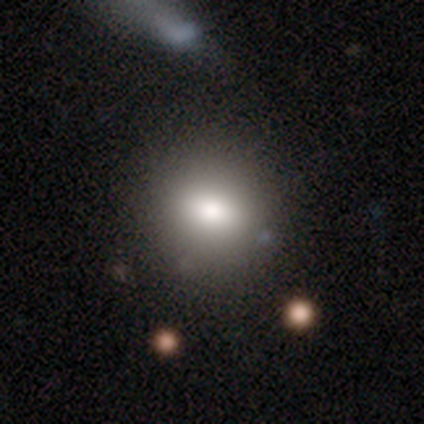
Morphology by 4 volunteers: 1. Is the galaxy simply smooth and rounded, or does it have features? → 50% smooth, 25% featured or disk, 25% star or artifact.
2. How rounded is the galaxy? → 50% round (tied), 50% in between (tied), 0% cigar-shaped.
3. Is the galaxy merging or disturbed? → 100% none, 0% minor disturbance, 0% major disturbance, 0% merger.